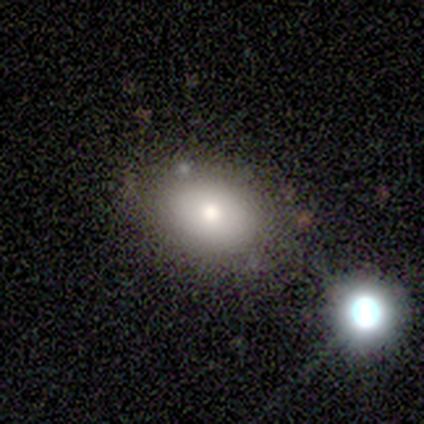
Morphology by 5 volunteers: Overall: smooth (60%; featured or disk 40%). How rounded: in between (67%; round 33%). Merging: none (80%).